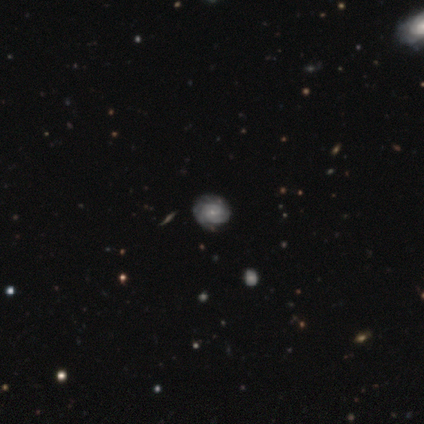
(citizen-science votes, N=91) Smooth or featured? 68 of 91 (75%) said featured or disk. Edge-on disk? 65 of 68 (96%) said no. Bar? 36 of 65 (55%) said no. Spiral arms? 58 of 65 (89%) said yes. Spiral winding? 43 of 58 (74%) said tight. Spiral arm count? 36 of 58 (62%) said can't tell. Bulge size? 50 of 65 (77%) said small. Merging? 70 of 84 (83%) said none.